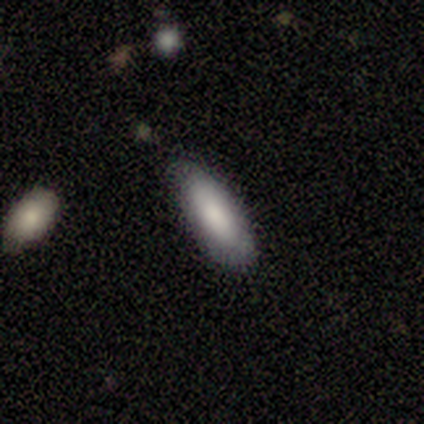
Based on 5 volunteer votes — This appears to be a smooth galaxy with no disk features (80%) that is in between round and cigar-shaped (100%). Merging: none (100%).